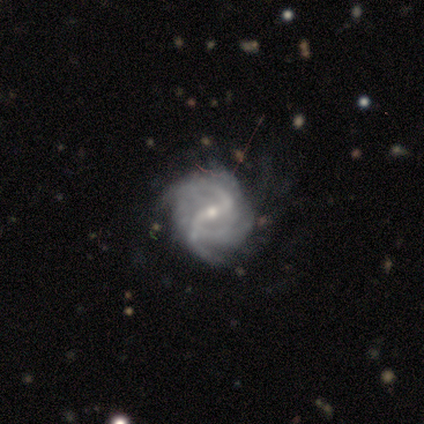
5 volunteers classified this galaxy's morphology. This appears to be a featured or disk galaxy (100%) with a strong bar (40%, tied with no), 2 (60%) loose (60%) spiral arms (100%) and a moderate central bulge (60%). Merging: none (80%).